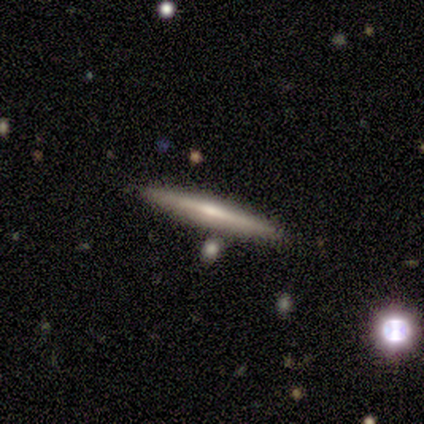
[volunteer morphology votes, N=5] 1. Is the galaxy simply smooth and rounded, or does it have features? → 60% featured or disk, 40% smooth, 0% star or artifact.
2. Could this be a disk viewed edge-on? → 100% yes, 0% no.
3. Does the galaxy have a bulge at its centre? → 67% none, 33% rounded, 0% boxy.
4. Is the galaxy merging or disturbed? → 100% none, 0% minor disturbance, 0% major disturbance, 0% merger.